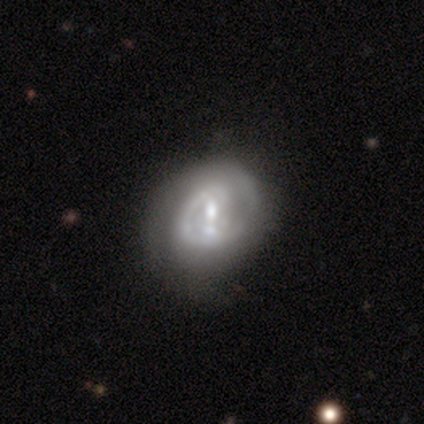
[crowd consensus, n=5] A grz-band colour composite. It shows a featured or disk galaxy (100%) with a strong bar (40%, tied with no), 1 (100%) tight (67%) spiral arms (60%) and a moderate central bulge (60%). Merging: none (40%).